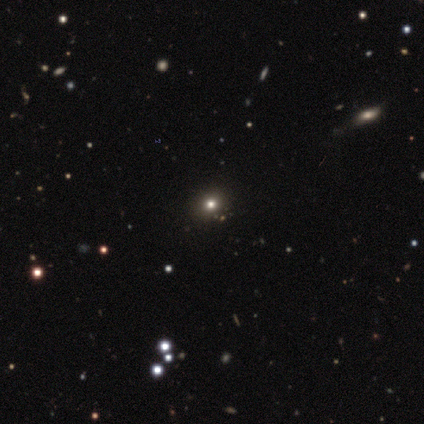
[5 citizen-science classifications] smooth-or-featured: star or artifact: 60% | smooth: 40% | featured or disk: 0%